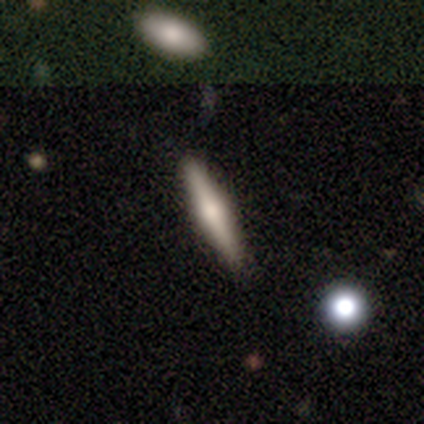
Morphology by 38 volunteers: This is possibly a smooth galaxy (53%). How rounded: clearly cigar-shaped (100%). Merging: clearly none (88%).